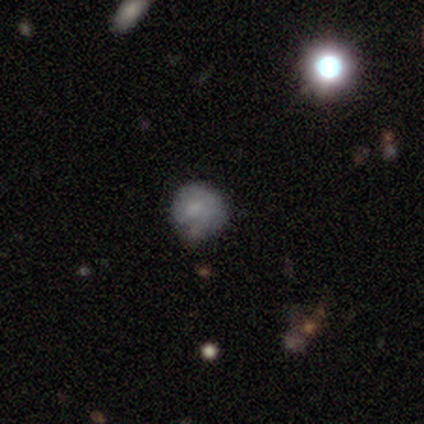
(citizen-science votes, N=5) smooth 40% (tied), star or artifact 40% (tied), featured or disk 20%. Down the decision tree: how rounded — round (50%, tied with cigar-shaped); merging — minor disturbance (67%).